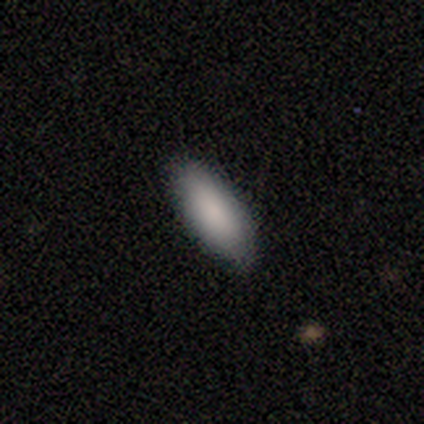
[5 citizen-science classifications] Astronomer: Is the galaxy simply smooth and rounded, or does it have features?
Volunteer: smooth — 80%.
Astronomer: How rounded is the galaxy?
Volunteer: in between — 75%.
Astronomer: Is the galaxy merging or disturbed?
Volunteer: none — 100%.